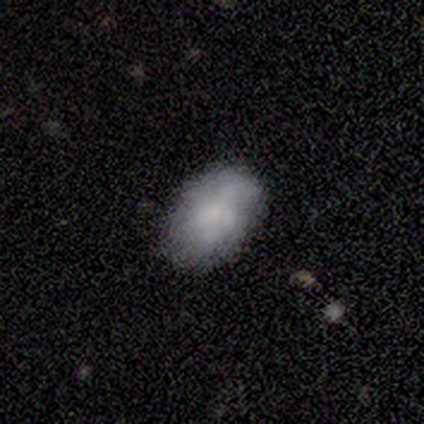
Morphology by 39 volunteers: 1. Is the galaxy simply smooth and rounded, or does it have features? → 64% smooth, 26% featured or disk, 10% star or artifact.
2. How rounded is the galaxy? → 84% in between, 12% round, 4% cigar-shaped.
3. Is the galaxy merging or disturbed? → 63% none, 29% minor disturbance, 9% major disturbance, 0% merger.